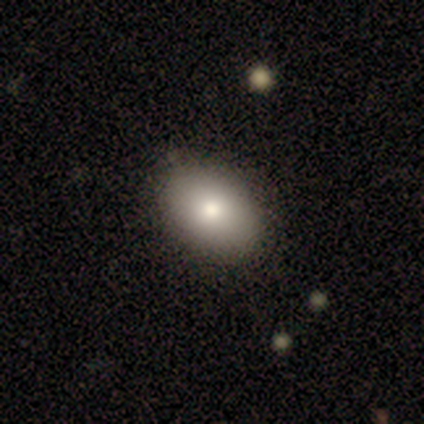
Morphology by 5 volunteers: Smooth or featured?
  - smooth: 100% *
  - featured or disk: 0%
  - star or artifact: 0%
How rounded?
  - in between: 100% *
  - round: 0%
  - cigar-shaped: 0%
Merging?
  - none: 80% *
  - minor disturbance: 20%
  - major disturbance: 0%
  - merger: 0%